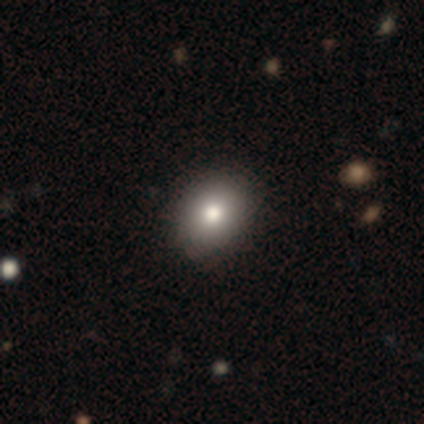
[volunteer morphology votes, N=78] A smooth galaxy with no disk features (86%) that is in between round and cigar-shaped (51%). Merging: none (46%).